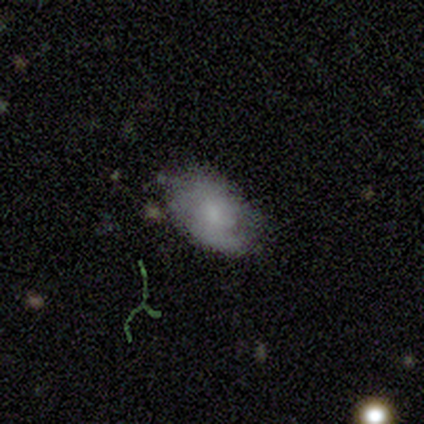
A smooth galaxy with no disk features (60%) that is in between round and cigar-shaped (100%). Merging: none (75%).